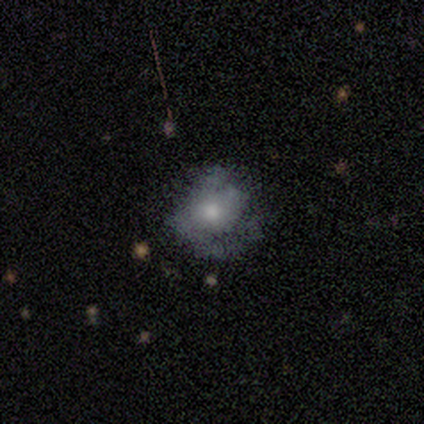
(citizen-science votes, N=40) Smooth or featured?
  - featured or disk: 50% *
  - smooth: 45%
  - star or artifact: 5%
Edge-on disk?
  - no: 95% *
  - yes: 5%
Bar?
  - no: 95% *
  - weak: 5%
  - strong: 0%
Spiral arms?
  - yes: 63% *
  - no: 37%
Spiral winding?
  - tight: 42% *
  - loose: 33%
  - medium: 25%
Spiral arm count?
  - 2: 42% *
  - can't tell: 33%
  - 1: 17%
  - more than 4: 8%
  - 3: 0%
  - 4: 0%
Bulge size?
  - moderate: 58% *
  - small: 21%
  - large: 16%
  - none: 5%
  - dominant: 0%
Merging?
  - none: 45% *
  - major disturbance: 21%
  - minor disturbance: 13%
  - merger: 0%